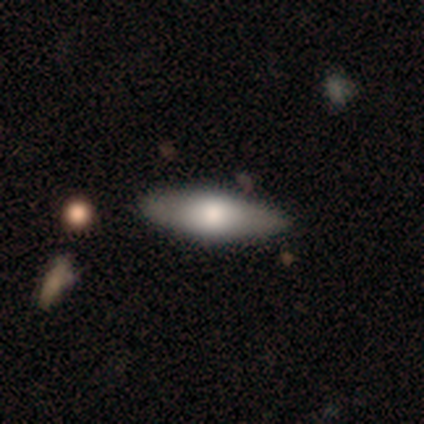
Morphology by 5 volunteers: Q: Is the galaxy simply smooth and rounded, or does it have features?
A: smooth — 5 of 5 (100%).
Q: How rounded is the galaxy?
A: in between — 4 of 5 (80%).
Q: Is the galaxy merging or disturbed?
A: none — 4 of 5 (80%).